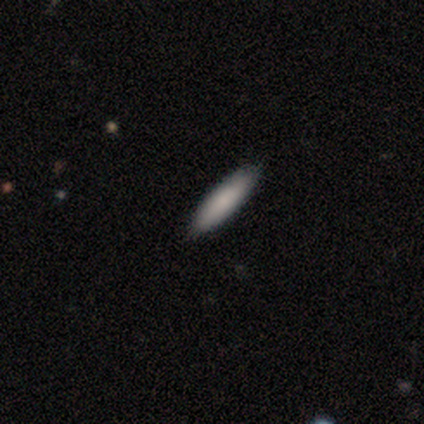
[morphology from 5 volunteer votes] smooth_or_featured: smooth (p=0.80) [alt: featured or disk p=0.20]
how_rounded: cigar-shaped (p=0.75) [alt: in between p=0.25]
merging: none (p=1.00)